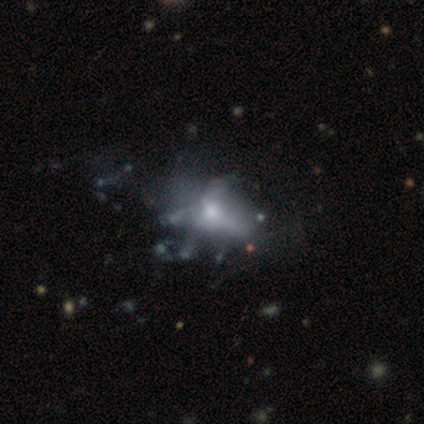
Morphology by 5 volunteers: A featured or disk galaxy (80%) with no bar (100%), no spiral arms (100%) and a moderate central bulge (50%, tied with small). Merging: major disturbance (75%).